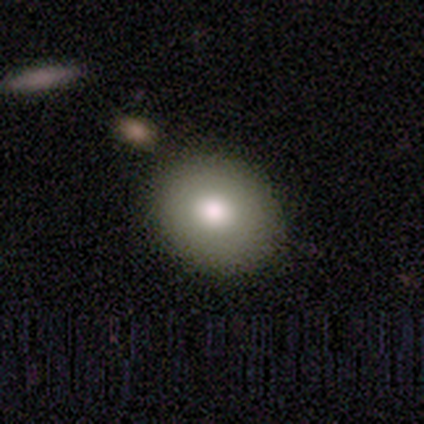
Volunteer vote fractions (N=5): Q: Smooth or featured?
A: smooth (100%)
Q: How rounded?
A: round (60%); runner-up: in between (40%)
Q: Merging?
A: none (100%)